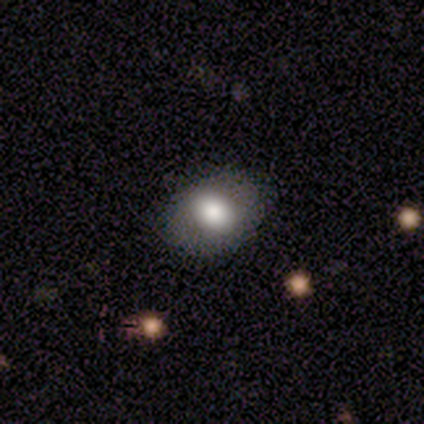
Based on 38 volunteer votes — This is likely a smooth galaxy (71%). How rounded: likely in between (74%). Merging: clearly none (91%).